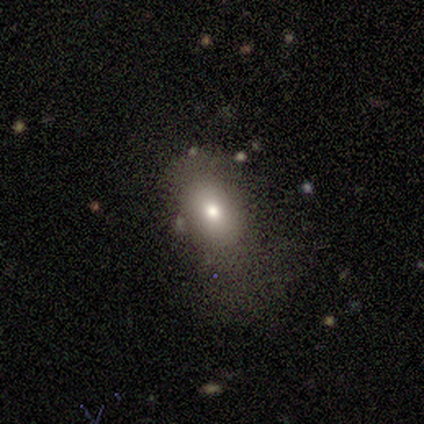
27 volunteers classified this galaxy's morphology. This appears to be a smooth galaxy with no disk features (67%) that is in between round and cigar-shaped (94%). Merging: none (50%).